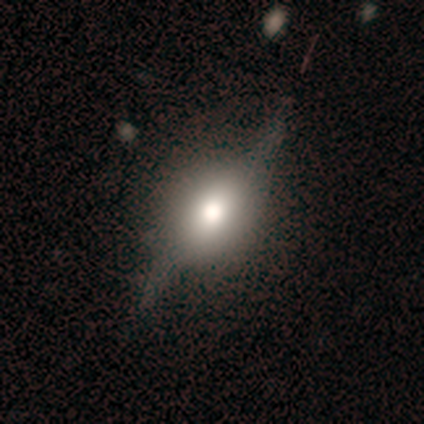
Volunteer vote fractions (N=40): This is possibly a featured or disk galaxy (55%). It is likely viewed edge-on (73%). Edge-on bulge: clearly rounded (94%). Merging: marginally none (40%).